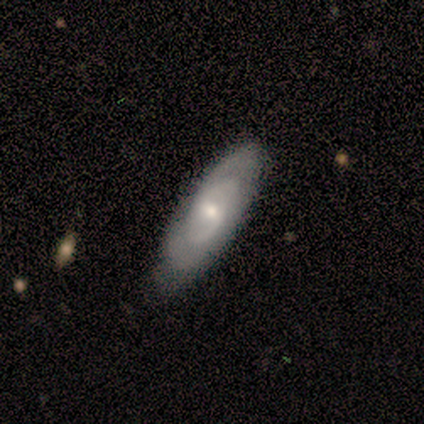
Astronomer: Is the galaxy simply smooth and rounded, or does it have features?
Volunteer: featured or disk — 80%.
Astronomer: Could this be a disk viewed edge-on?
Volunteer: no — 75%.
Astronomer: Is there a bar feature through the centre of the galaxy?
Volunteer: weak — 67%.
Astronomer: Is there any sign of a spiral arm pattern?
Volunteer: yes — 100%.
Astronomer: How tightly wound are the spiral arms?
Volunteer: tight — 67%.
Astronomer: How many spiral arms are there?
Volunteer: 2 — 67%.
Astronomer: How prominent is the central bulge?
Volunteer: moderate — 67%.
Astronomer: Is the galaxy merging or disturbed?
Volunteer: none — 60% (runner-up: minor disturbance, 40%).